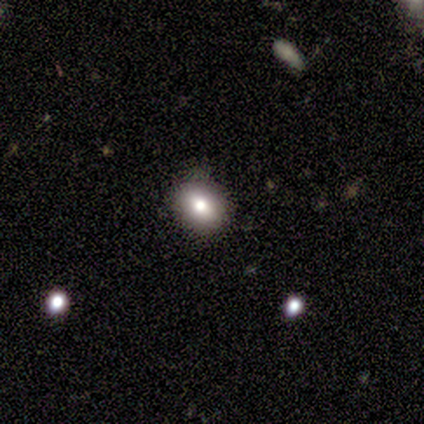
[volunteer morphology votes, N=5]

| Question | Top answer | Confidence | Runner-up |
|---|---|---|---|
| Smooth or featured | smooth | 60% | featured or disk (40%) |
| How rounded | in between | 67% | round (33%) |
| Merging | none | 100% | — |